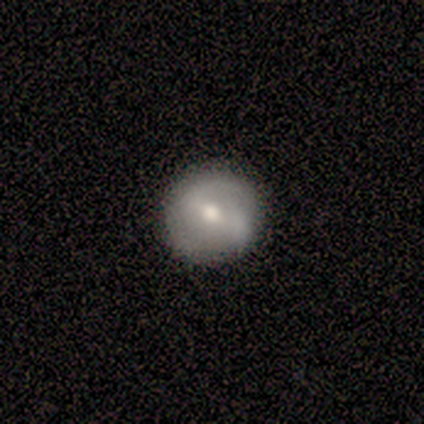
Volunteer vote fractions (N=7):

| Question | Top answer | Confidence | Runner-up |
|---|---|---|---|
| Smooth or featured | featured or disk | 57% | smooth (29%) |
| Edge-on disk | no | 100% | — |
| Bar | strong | 75% | weak (25%) |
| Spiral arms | yes | 100% | — |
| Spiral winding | tight | 50% | tied: medium (50%) |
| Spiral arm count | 2 | 100% | — |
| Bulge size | moderate | 100% | — |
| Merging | none | 67% | minor disturbance (33%) |